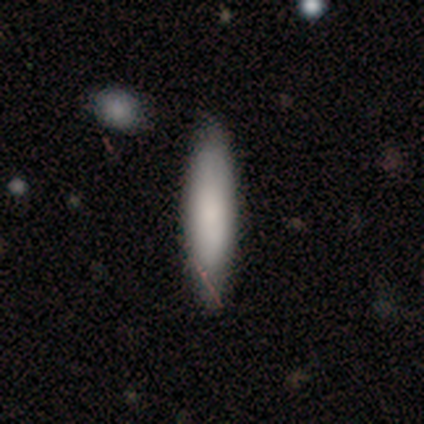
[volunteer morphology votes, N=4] smooth_or_featured: smooth (p=1.00)
how_rounded: in between (p=0.50) [tied with: cigar-shaped p=0.50]
merging: none (p=1.00)